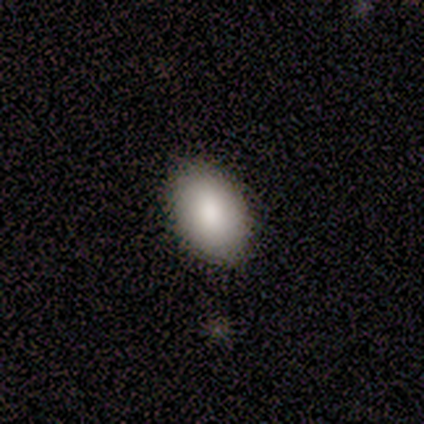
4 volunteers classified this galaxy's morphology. Overall: smooth (100%). How rounded: in between (75%). Merging: none (50%, tied with minor disturbance).